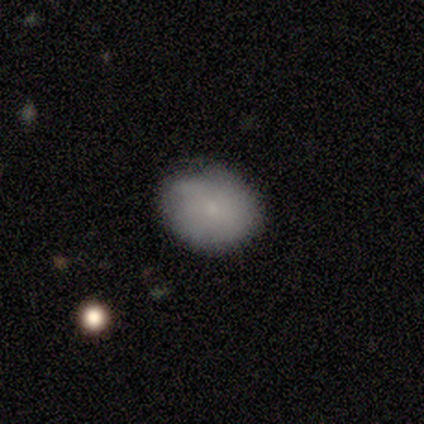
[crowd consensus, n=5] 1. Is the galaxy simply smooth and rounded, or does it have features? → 60% smooth, 20% featured or disk, 20% star or artifact.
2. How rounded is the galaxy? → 100% in between, 0% round, 0% cigar-shaped.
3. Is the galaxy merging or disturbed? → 100% none, 0% minor disturbance, 0% major disturbance, 0% merger.